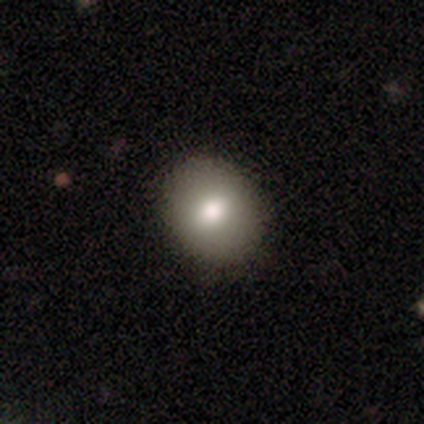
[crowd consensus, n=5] This appears to be a featured or disk galaxy (60%) with no bar (67%), no spiral arms (100%) and a large central bulge (67%). Merging: minor disturbance (60%).